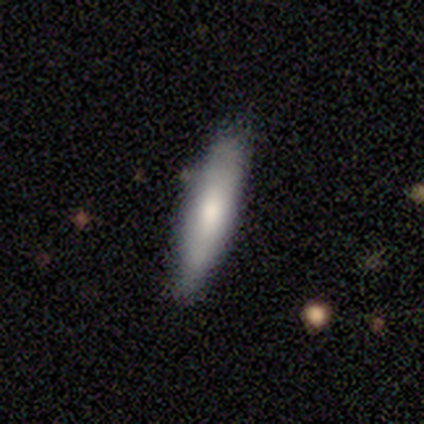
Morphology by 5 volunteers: This is clearly a smooth galaxy (80%). How rounded: clearly cigar-shaped (100%). Merging: clearly none (80%).